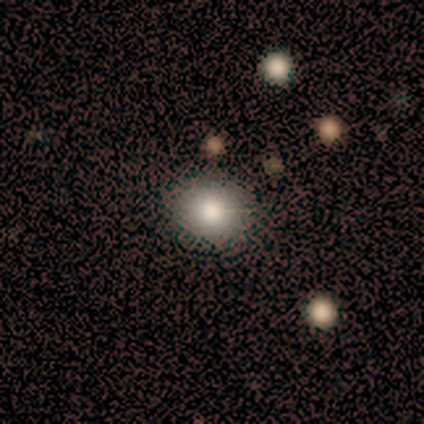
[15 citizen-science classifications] smooth 80%, star or artifact 13%, featured or disk 7%. Down the decision tree: how rounded — round (92%); merging — none (92%).